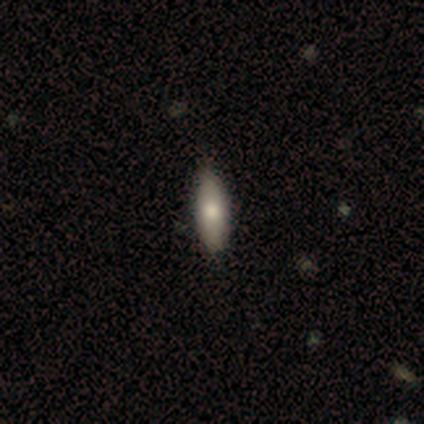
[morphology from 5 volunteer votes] Volunteers were most divided on "how rounded": in between: 80%, cigar-shaped: 20%, round: 0%. More confident: smooth or featured — smooth (100%); merging — none (100%).